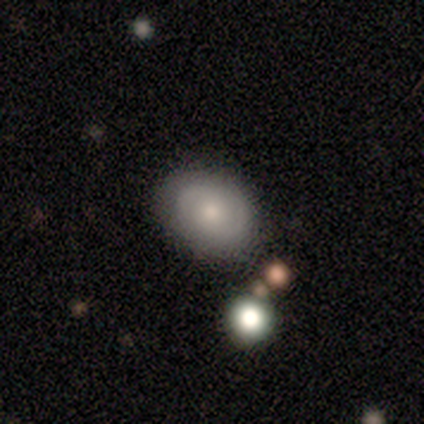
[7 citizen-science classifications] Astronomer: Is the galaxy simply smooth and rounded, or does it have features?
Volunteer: featured or disk — 71%.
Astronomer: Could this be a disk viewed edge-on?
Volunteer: no — 100%.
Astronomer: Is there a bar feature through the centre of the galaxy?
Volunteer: no — 60% (runner-up: weak, 40%).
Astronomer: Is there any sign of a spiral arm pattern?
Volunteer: no — 60% (runner-up: yes, 40%).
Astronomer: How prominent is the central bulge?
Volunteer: small — 60% (runner-up: moderate, 40%).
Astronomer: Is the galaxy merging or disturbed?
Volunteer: none — 71%.